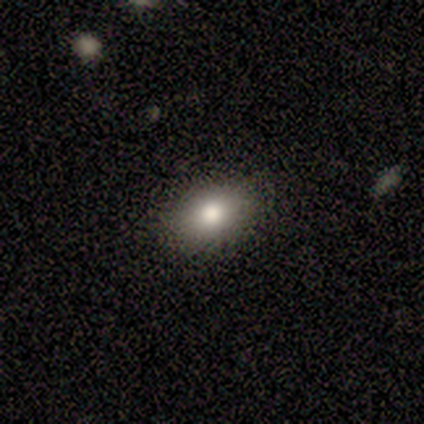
Q: Smooth or featured?
A: smooth (83%); runner-up: star or artifact (17%)
Q: How rounded?
A: in between (80%); runner-up: round (20%)
Q: Merging?
A: none (60%); runner-up: minor disturbance (40%)